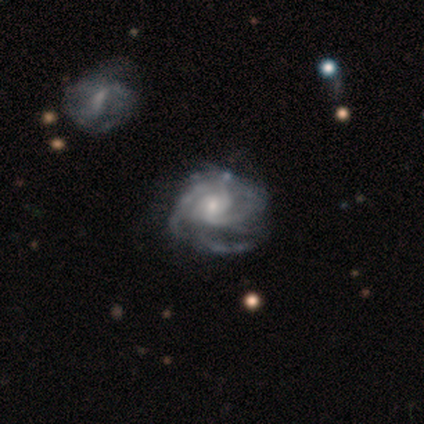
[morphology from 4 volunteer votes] Q: Smooth or featured?
A: featured or disk (75%); runner-up: smooth (25%)
Q: Edge-on disk?
A: no (100%)
Q: Bar?
A: no (100%)
Q: Spiral arms?
A: yes (100%)
Q: Spiral winding?
A: tight (100%)
Q: Spiral arm count?
A: 2 (33%); tied with: 4 (33%); can't tell (33%)
Q: Bulge size?
A: moderate (67%); runner-up: large (33%)
Q: Merging?
A: minor disturbance (50%); tied with: major disturbance (50%)